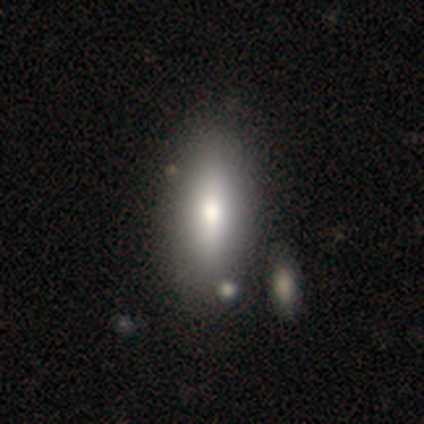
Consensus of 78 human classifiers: This is likely a smooth galaxy (74%). How rounded: likely in between (69%). Merging: marginally none (34%).